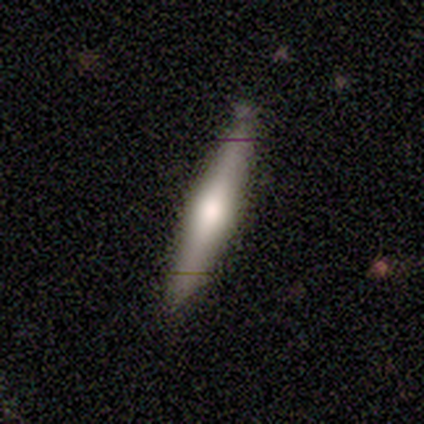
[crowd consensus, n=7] Smooth or featured? smooth (57%)
How rounded? cigar-shaped (100%)
Merging? none (71%)